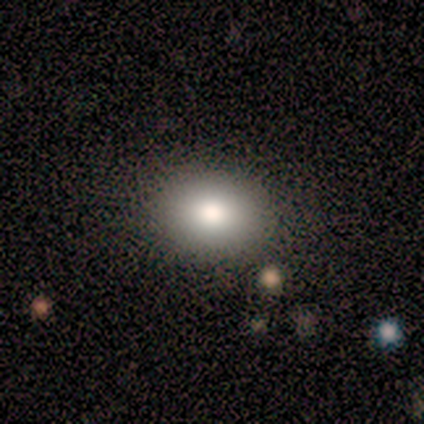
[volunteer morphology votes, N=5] A smooth galaxy with no disk features (100%) that is in between round and cigar-shaped (60%).

Vote fractions:
- Smooth or featured? smooth: 100% / featured or disk: 0% / star or artifact: 0%
- How rounded? in between: 60% / round: 40% / cigar-shaped: 0%
- Merging? none: 100% / minor disturbance: 0% / major disturbance: 0% / merger: 0%